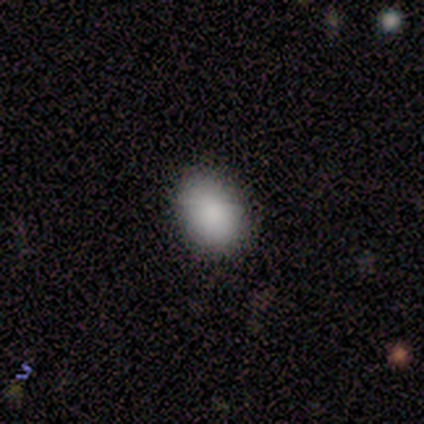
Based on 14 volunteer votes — This appears to be a smooth galaxy with no disk features (86%) that is in between round and cigar-shaped (75%). Merging: none (77%).